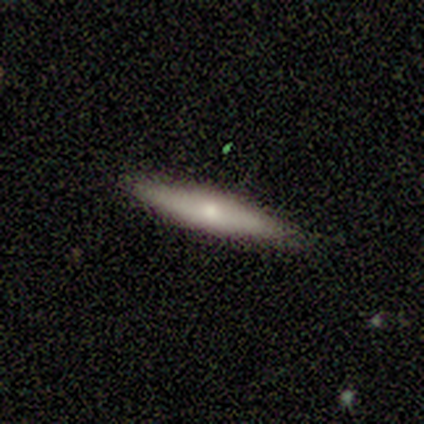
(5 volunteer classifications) Q: Smooth or featured?
A: featured or disk (60%); runner-up: smooth (40%)
Q: Edge-on disk?
A: yes (100%)
Q: Edge-on bulge?
A: none (67%); runner-up: rounded (33%)
Q: Merging?
A: none (40%); tied with: minor disturbance (40%)